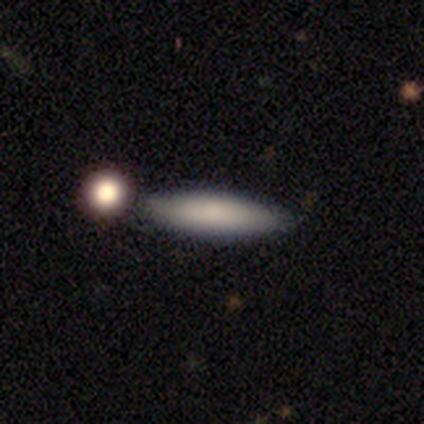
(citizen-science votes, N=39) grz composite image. It shows a smooth galaxy with no disk features (74%) that is cigar-shaped (72%). Merging: none (70%).